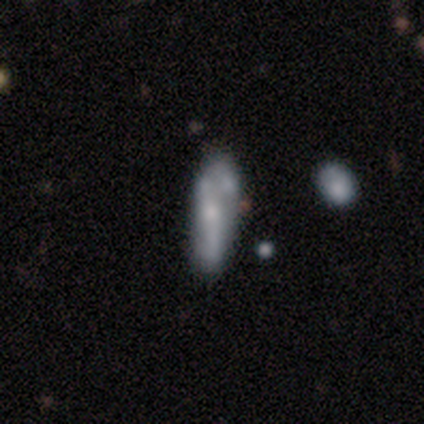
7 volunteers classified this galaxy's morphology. Volunteers were most divided on "smooth or featured": featured or disk: 57%, smooth: 43%, star or artifact: 0%. More confident: edge-on disk — no (100%); bar — no (75%); spiral arms — no (75%); bulge size — small (75%); merging — minor disturbance (71%).